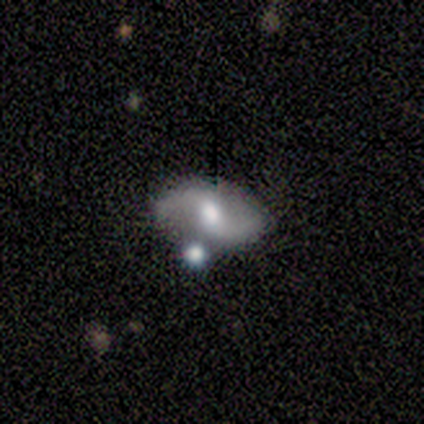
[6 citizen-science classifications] A featured or disk galaxy (100%) with a weak bar (83%), 2 (100%) medium (50%, tied with loose) spiral arms (100%) and a moderate central bulge (67%). Merging: none (83%).